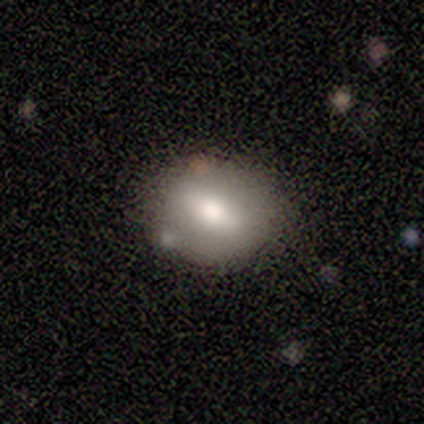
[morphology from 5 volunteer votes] This appears to be a smooth galaxy with no disk features (60%) that is in between round and cigar-shaped (100%). Merging: none (75%).